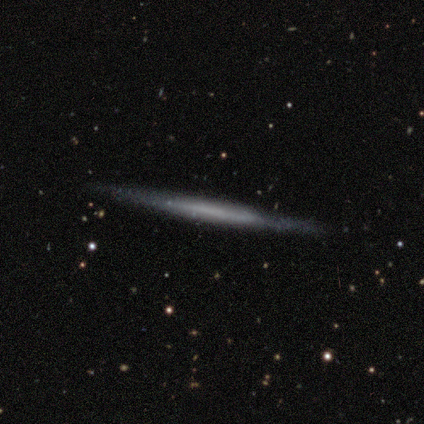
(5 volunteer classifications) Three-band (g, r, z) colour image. It shows a featured or disk galaxy (60%) viewed edge-on (100%) with no central bulge (67%). Merging: none (100%).